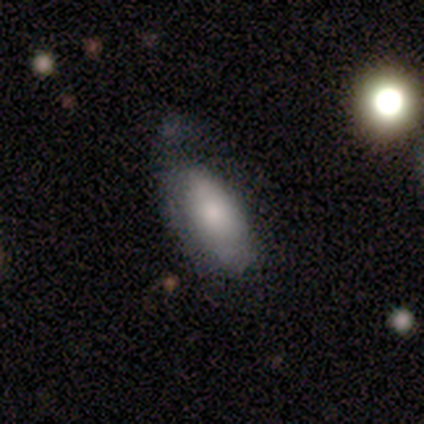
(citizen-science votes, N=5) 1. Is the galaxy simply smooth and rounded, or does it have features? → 100% smooth, 0% featured or disk, 0% star or artifact.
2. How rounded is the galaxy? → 60% in between, 20% round, 20% cigar-shaped.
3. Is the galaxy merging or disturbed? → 40% none (tied), 40% minor disturbance (tied), 20% major disturbance, 0% merger.